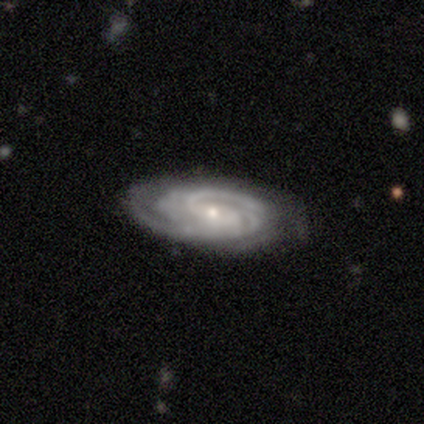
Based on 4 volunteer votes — This is clearly a featured or disk galaxy (100%). It is clearly not viewed edge-on (100%). Bar: likely no (75%). Spiral arm pattern: clearly yes (100%). Spiral arm count: likely 4 (75%). Spiral winding: clearly tight (100%). Central bulge: clearly small (100%). Merging: likely none (75%).